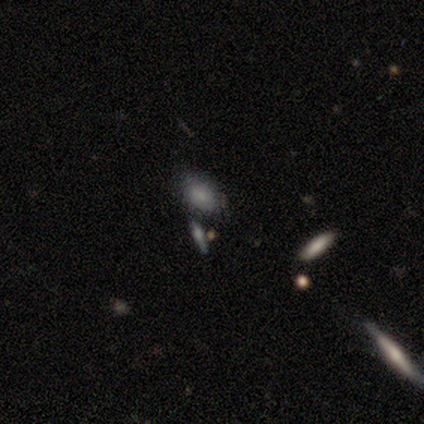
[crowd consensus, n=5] smooth 80%, featured or disk 20%, star or artifact 0%. Down the decision tree: how rounded — in between (100%); merging — none (60%).